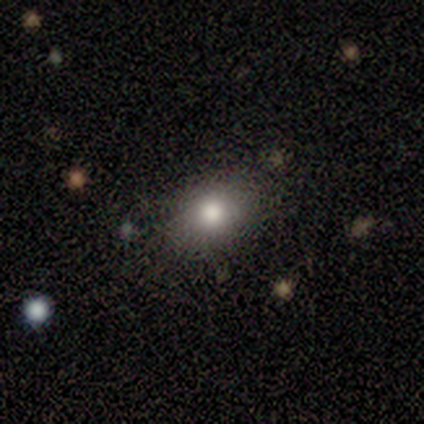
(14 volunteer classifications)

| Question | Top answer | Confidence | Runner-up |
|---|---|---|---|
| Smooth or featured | smooth | 93% | star or artifact (7%) |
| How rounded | in between | 85% | round (15%) |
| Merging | none | 92% | major disturbance (8%) |